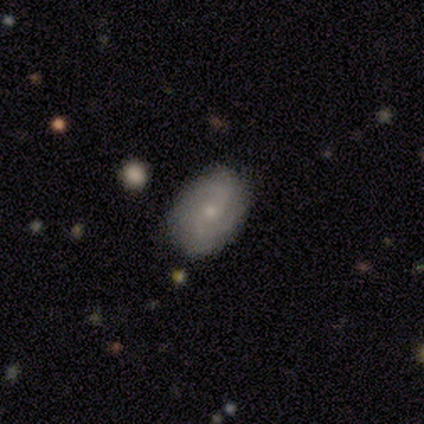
This appears to be a featured or disk galaxy (65%) with a weak bar (50%, tied with no), 2 (71%) medium (50%) spiral arms (92%) and a small central bulge (73%). Merging: none (89%).